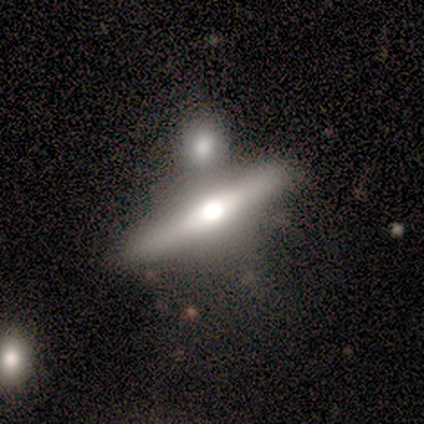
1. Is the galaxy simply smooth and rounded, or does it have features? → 50% smooth (tied), 50% featured or disk (tied), 0% star or artifact.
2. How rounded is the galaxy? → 67% cigar-shaped, 33% in between, 0% round.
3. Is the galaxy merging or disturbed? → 83% none, 17% merger, 0% minor disturbance, 0% major disturbance.